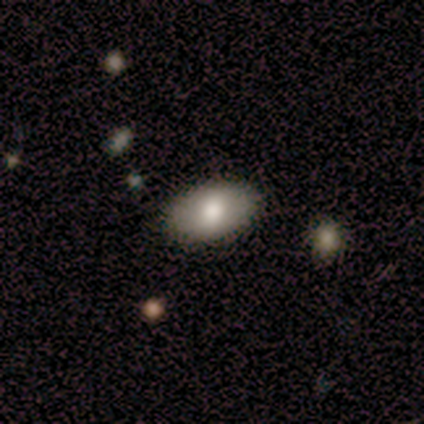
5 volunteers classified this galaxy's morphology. This appears to be a smooth galaxy with no disk features (100%) that is in between round and cigar-shaped (60%). Merging: none (100%).